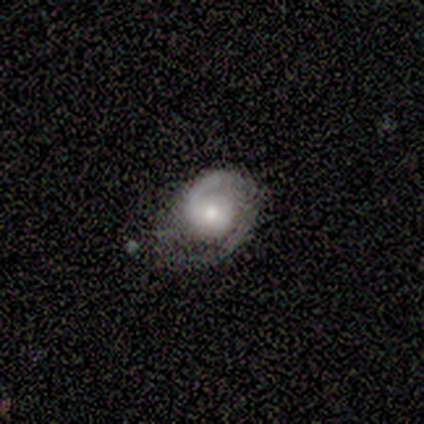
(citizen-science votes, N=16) This appears to be a featured or disk galaxy (81%) with no bar (100%), 2 (62%) tight (46%) spiral arms (100%) and a moderate central bulge (54%). Merging: none (53%).